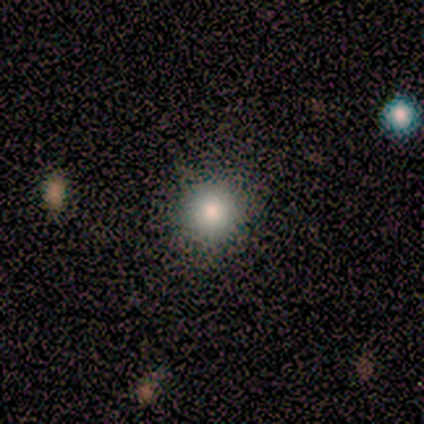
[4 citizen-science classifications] Volunteers were most divided on "smooth or featured": smooth: 75%, featured or disk: 25%, star or artifact: 0%. More confident: how rounded — round (100%); merging — none (100%).